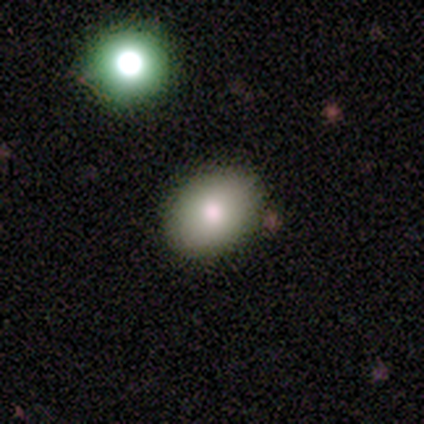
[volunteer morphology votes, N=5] This appears to be a smooth galaxy with no disk features (100%) that is in between round and cigar-shaped (100%). Merging: none (80%).